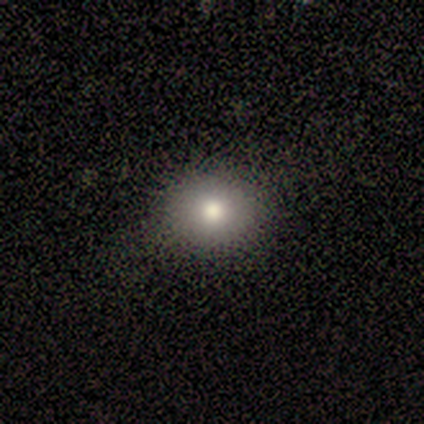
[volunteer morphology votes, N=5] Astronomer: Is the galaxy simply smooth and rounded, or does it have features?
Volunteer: smooth — 100%.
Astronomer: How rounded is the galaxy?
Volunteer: round — 100%.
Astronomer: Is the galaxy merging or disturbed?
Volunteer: none — 80%.